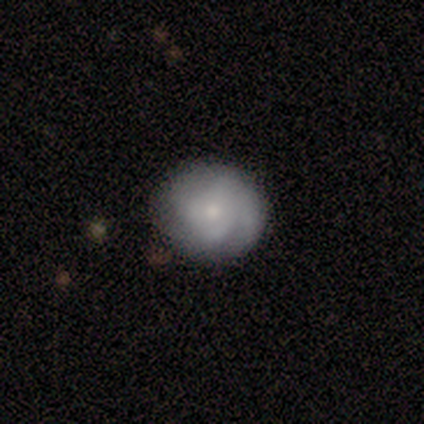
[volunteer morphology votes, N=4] Overall: featured or disk (50%; smooth 25%). Edge-on disk: no (100%). Bar: no (100%). Spiral arms: yes (100%). Spiral arm count: 4 (50%, tied with can't tell). Spiral winding: medium (100%). Bulge size: moderate (50%, tied with small). Merging: none (67%; minor disturbance 33%).